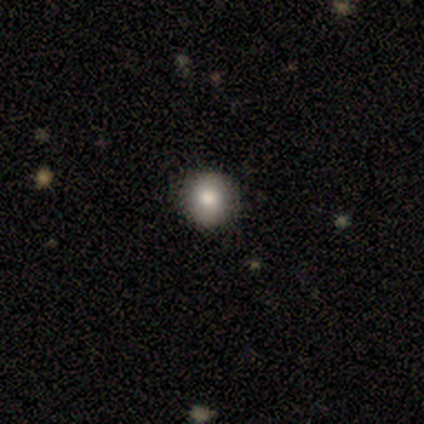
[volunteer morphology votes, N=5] Smooth or featured? smooth (80%)
How rounded? round (100%)
Merging? none (100%)